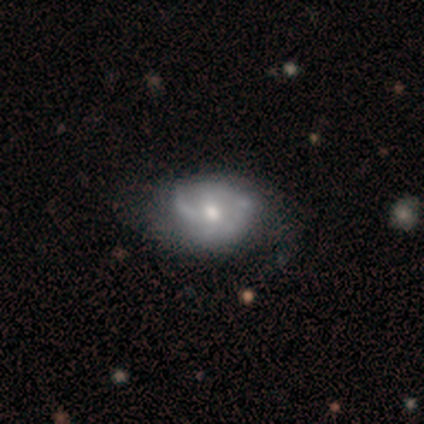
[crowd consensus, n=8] smooth-or-featured: featured or disk: 62% | smooth: 25% | star or artifact: 12%
  disk-edge-on: no: 100% | yes: 0%
    bar: no: 80% | weak: 20% | strong: 0%
    has-spiral-arms: yes: 100% | no: 0%
      spiral-winding: medium: 60% | tight: 20% | loose: 20%
      spiral-arm-count: 2: 60% | 3: 20% | can't tell: 20% | 1: 0% | 4: 0% | more than 4: 0%
    bulge-size: moderate: 60% | small: 40% | dominant: 0% | large: 0% | none: 0%
  merging: none: 43% | minor disturbance: 29% | major disturbance: 29% | merger: 0%